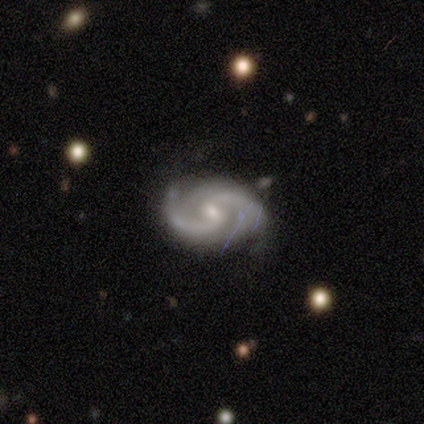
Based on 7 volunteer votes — Smooth or featured: featured or disk — 100%
Edge-on disk: no — 100%
Bar: weak — 71% (no — 29%)
Spiral arms: yes — 100%
Spiral winding: medium — 57% (tight — 43%)
Spiral arm count: 2 — 86% (can't tell — 14%)
Bulge size: small — 57% (moderate — 43%)
Merging: none — 71% (minor disturbance — 29%)